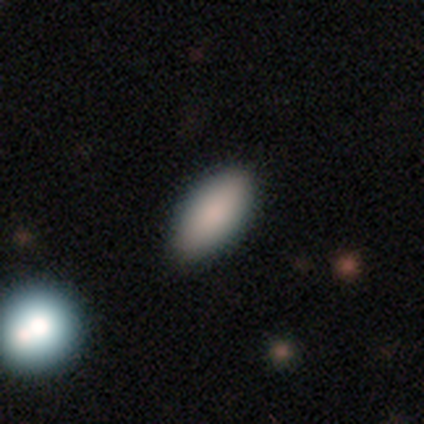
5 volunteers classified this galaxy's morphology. smooth-or-featured: smooth: 80% | featured or disk: 20% | star or artifact: 0%
  how-rounded: in between: 75% | cigar-shaped: 25% | round: 0%
  merging: none: 60% | minor disturbance: 40% | major disturbance: 0% | merger: 0%